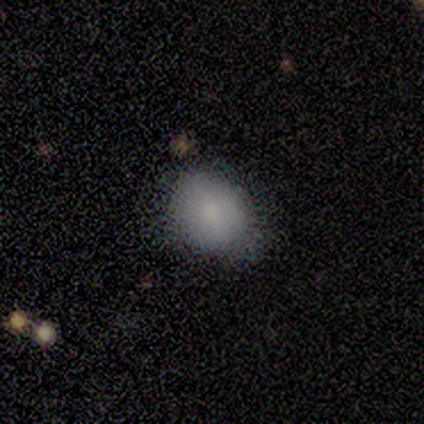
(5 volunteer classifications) This appears to be a smooth galaxy with no disk features (80%) that is round (50%, tied with in between). Merging: none (60%).